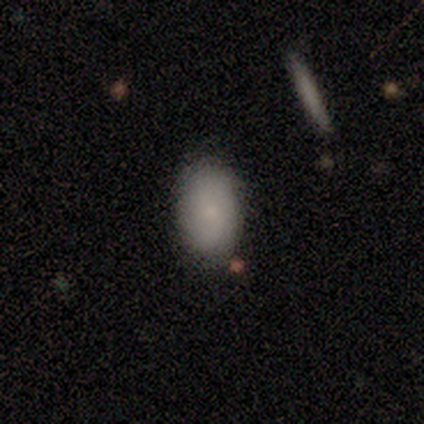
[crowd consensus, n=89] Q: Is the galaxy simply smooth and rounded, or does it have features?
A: smooth — 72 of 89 (81%).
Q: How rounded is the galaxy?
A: in between — 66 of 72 (92%).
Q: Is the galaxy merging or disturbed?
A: none — 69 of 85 (81%).